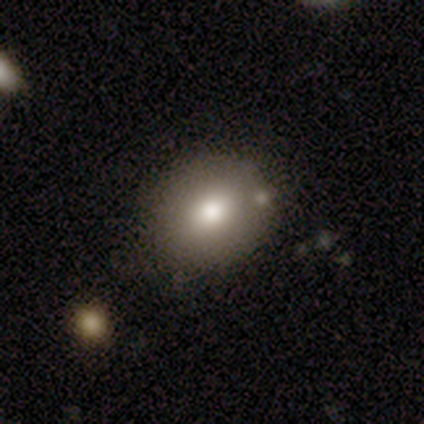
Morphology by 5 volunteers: This appears to be a smooth galaxy with no disk features (100%) that is in between round and cigar-shaped (80%). Merging: none (100%).